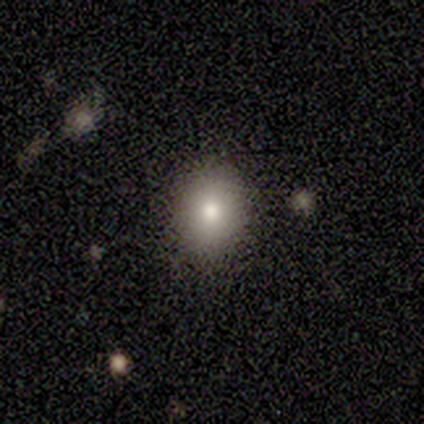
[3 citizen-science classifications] featured or disk 67%, smooth 33%, star or artifact 0%. Down the decision tree: edge-on disk — no (100%); bar — no (100%); spiral arms — no (100%); bulge size — large (50%, tied with moderate); merging — none (100%).